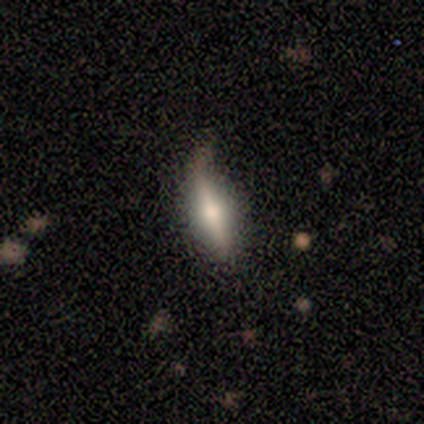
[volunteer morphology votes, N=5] This appears to be a featured or disk galaxy (60%) viewed edge-on (100%) with a rounded central bulge (67%). Merging: none (40%, tied with major disturbance).